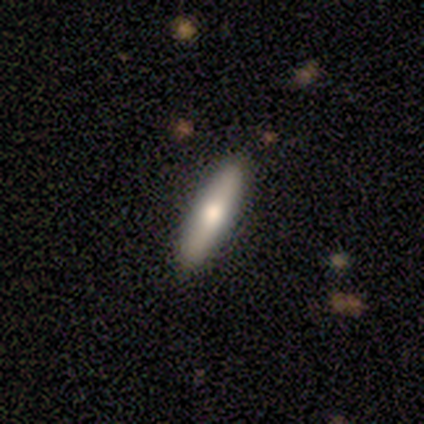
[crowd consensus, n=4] Volunteers were most divided on "edge-on bulge" (2-way tie): boxy: 50%, rounded: 50%, none: 0%. More confident: edge-on disk — yes (100%); merging — none (100%); smooth or featured — featured or disk (50%).